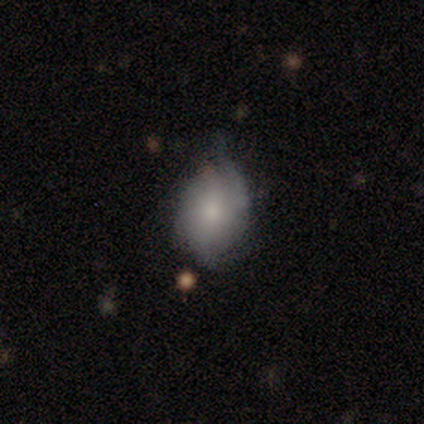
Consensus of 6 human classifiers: Smooth or featured? 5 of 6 (83%) said smooth. How rounded? 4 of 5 (80%) said in between. Merging? 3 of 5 (60%) said minor disturbance.